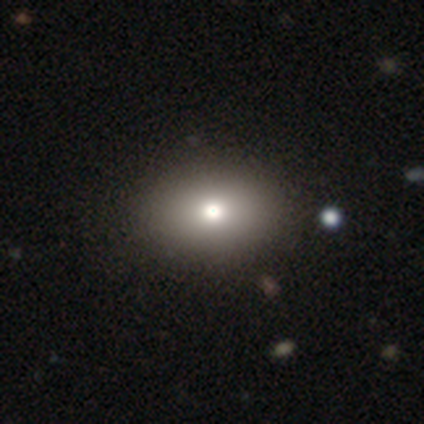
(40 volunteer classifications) smooth-or-featured: smooth: 80% | featured or disk: 12% | star or artifact: 8%
  how-rounded: in between: 66% | round: 34% | cigar-shaped: 0%
  merging: none: 70% | minor disturbance: 3% | major disturbance: 3% | merger: 0%